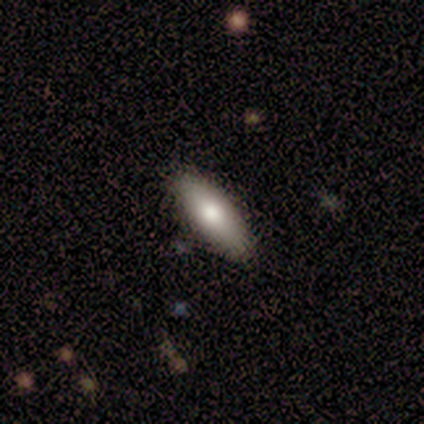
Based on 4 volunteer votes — Q: Smooth or featured?
A: smooth (75%); runner-up: star or artifact (25%)
Q: How rounded?
A: in between (100%)
Q: Merging?
A: none (100%)